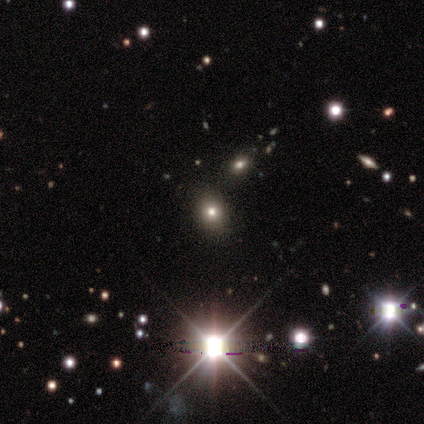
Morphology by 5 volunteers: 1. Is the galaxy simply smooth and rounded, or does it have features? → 100% star or artifact, 0% smooth, 0% featured or disk.